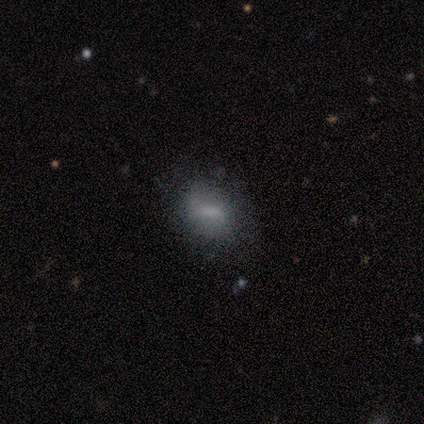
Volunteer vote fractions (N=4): smooth_or_featured: smooth (p=0.75) [alt: featured or disk p=0.25]
how_rounded: round (p=0.67) [alt: in between p=0.33]
merging: none (p=1.00)